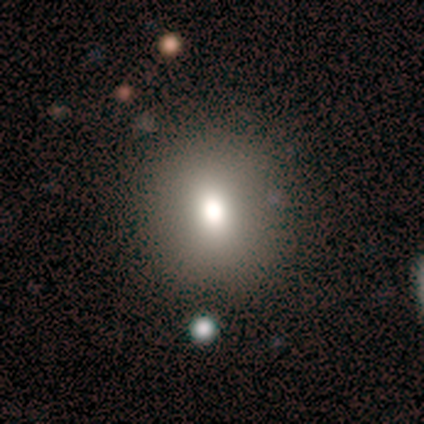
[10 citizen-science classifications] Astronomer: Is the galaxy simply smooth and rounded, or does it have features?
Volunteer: smooth — 100%.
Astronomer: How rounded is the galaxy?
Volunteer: round — 70%.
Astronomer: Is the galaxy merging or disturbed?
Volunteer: none — 90%.